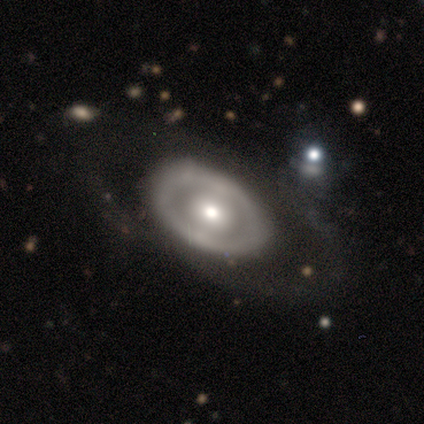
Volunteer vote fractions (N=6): Smooth or featured? smooth (50%)
How rounded? round (67%)
Merging? none (100%)